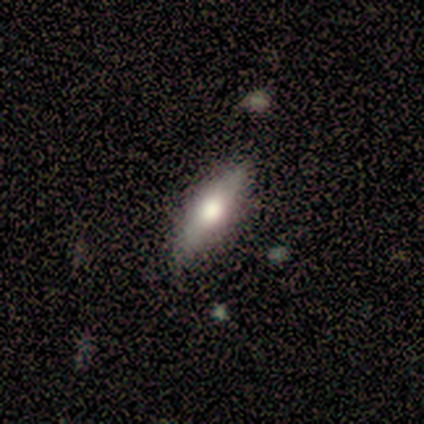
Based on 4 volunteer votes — smooth-or-featured: smooth: 50% (tied) | featured or disk: 50% (tied) | star or artifact: 0%
  how-rounded: cigar-shaped: 100% | round: 0% | in between: 0%
  merging: none: 75% | minor disturbance: 25% | major disturbance: 0% | merger: 0%